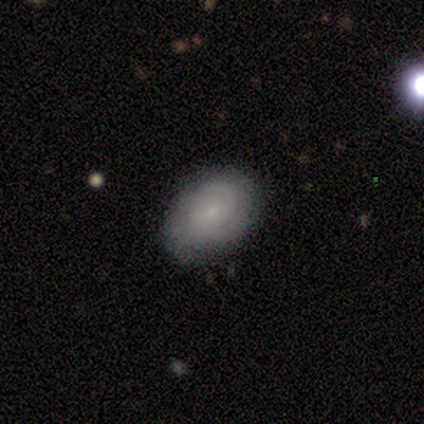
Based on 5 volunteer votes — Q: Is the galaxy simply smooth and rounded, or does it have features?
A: smooth — 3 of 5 (60%).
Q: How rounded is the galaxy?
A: in between — 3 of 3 (100%).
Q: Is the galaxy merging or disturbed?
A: none — 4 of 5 (80%).